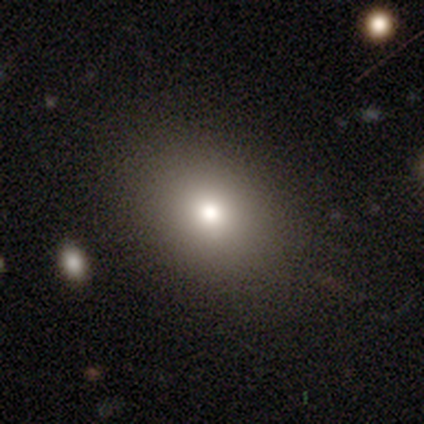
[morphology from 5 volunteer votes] This appears to be a smooth galaxy with no disk features (40%, tied with star or artifact) that is in between round and cigar-shaped (100%). Merging: none (100%).